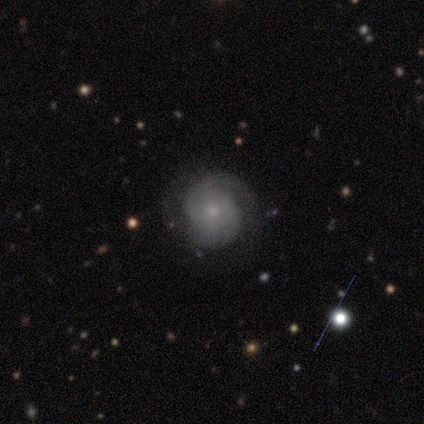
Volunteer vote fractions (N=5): featured or disk 100%, smooth 0%, star or artifact 0%. Down the decision tree: edge-on disk — no (100%); bar — no (100%); spiral arms — yes (100%); spiral arm count — 1 (40%, tied with 2); spiral winding — tight (60%); bulge size — small (80%); merging — none (80%).